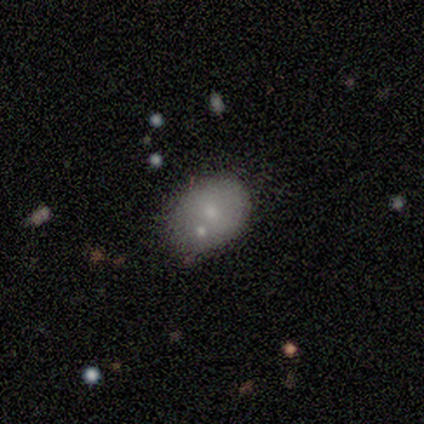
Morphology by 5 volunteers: This appears to be a smooth galaxy with no disk features (60%) that is in between round and cigar-shaped (67%). Merging: none (60%).